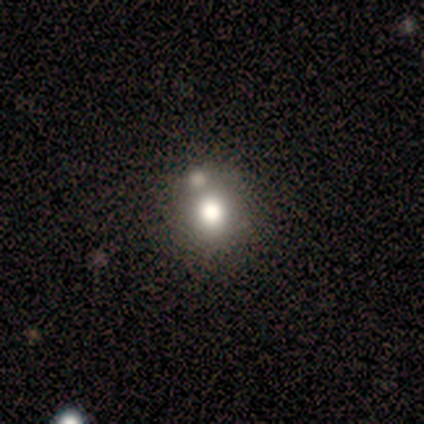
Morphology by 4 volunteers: Smooth or featured: smooth — 50% (tied with star or artifact — 50%)
How rounded: round — 100%
Merging: minor disturbance — 50% (tied with merger — 50%)